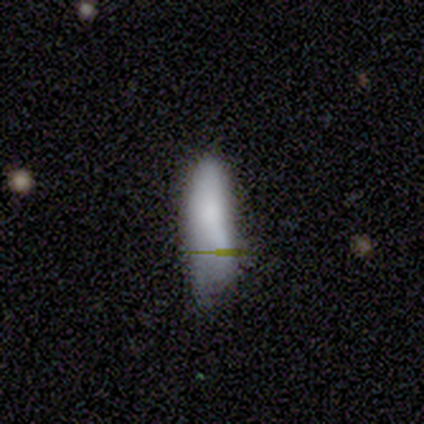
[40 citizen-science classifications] Smooth or featured? smooth (78%)
How rounded? cigar-shaped (58%)
Merging? none (50%)